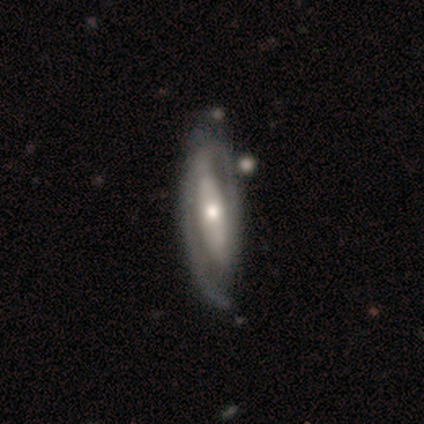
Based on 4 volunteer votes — Q: Smooth or featured?
A: featured or disk (100%)
Q: Edge-on disk?
A: no (75%); runner-up: yes (25%)
Q: Bar?
A: strong (33%); tied with: weak (33%); no (33%)
Q: Spiral arms?
A: yes (67%); runner-up: no (33%)
Q: Spiral winding?
A: tight (50%); tied with: medium (50%)
Q: Spiral arm count?
A: 2 (50%); tied with: can't tell (50%)
Q: Bulge size?
A: large (33%); tied with: moderate (33%); small (33%)
Q: Merging?
A: none (50%); runner-up: minor disturbance (25%)